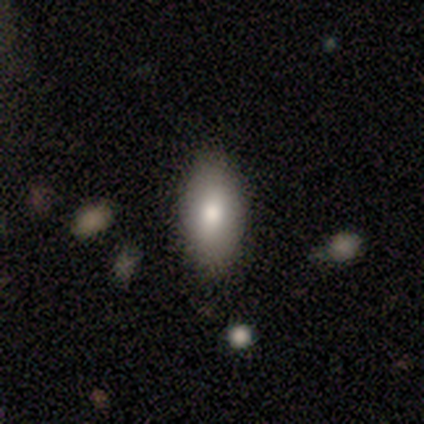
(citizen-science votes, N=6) smooth-or-featured: smooth: 67% | featured or disk: 17% | star or artifact: 17%
  how-rounded: in between: 100% | round: 0% | cigar-shaped: 0%
  merging: none: 100% | minor disturbance: 0% | major disturbance: 0% | merger: 0%